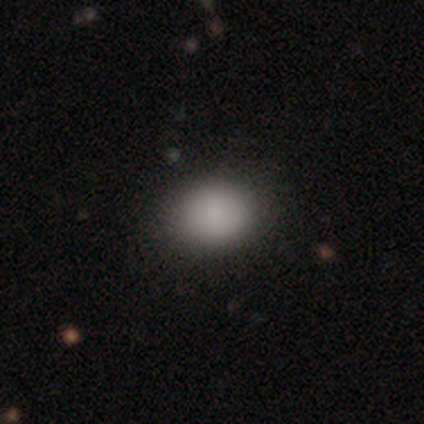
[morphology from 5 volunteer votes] A smooth galaxy with no disk features (100%) that is in between round and cigar-shaped (60%). Merging: none (80%).